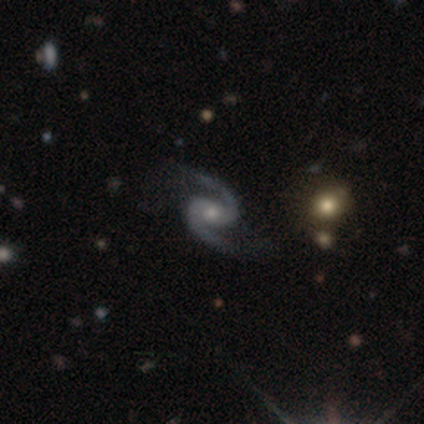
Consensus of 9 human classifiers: Volunteers were most divided on "bulge size" (2-way tie): moderate: 44%, small: 44%, large: 11%, dominant: 0%, none: 0%. More confident: smooth or featured — featured or disk (100%); edge-on disk — no (100%); spiral arms — yes (100%); spiral arm count — 2 (100%); merging — none (89%); spiral winding — loose (56%); bar — no (56%).